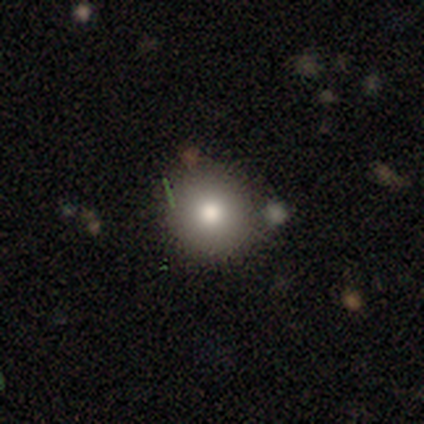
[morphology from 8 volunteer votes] Smooth or featured: smooth — 88% (featured or disk — 12%)
How rounded: round — 100%
Merging: none — 88% (minor disturbance — 12%)